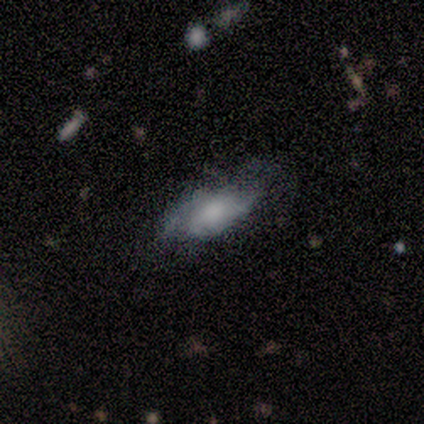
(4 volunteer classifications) smooth-or-featured: featured or disk: 75% | smooth: 25% | star or artifact: 0%
  disk-edge-on: no: 67% | yes: 33%
    bar: no: 100% | strong: 0% | weak: 0%
    has-spiral-arms: no: 100% | yes: 0%
    bulge-size: moderate: 50% (tied) | none: 50% (tied) | dominant: 0% | large: 0% | small: 0%
  merging: none: 50% (tied) | major disturbance: 50% (tied) | minor disturbance: 0% | merger: 0%